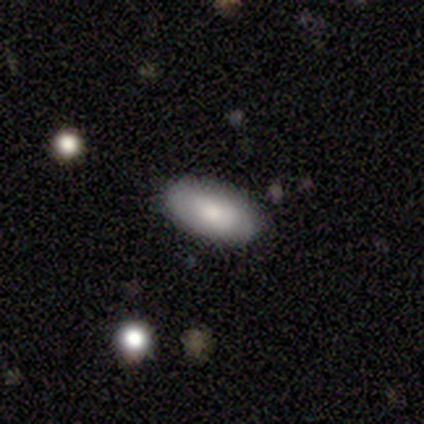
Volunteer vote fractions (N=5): This appears to be a smooth galaxy with no disk features (60%) that is in between round and cigar-shaped (100%). Merging: none (100%).